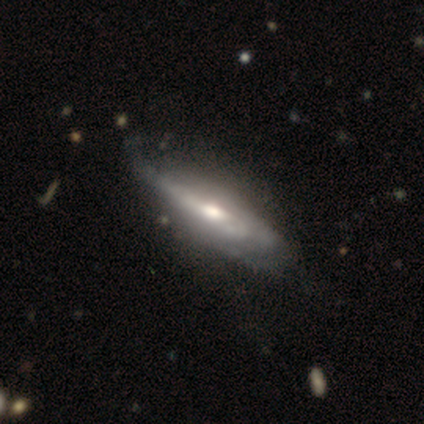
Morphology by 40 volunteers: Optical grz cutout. It shows a featured or disk galaxy (68%) with no bar (67%), medium (57%) spiral arms (78%) and a moderate central bulge (78%). Merging: none (49%).